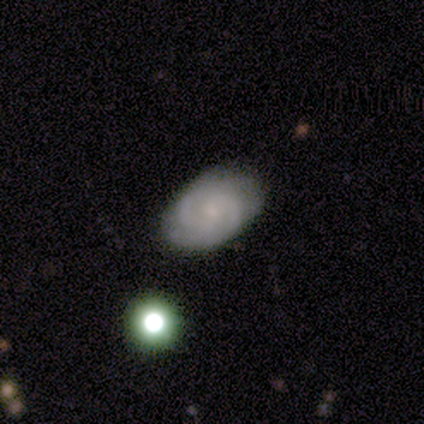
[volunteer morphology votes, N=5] Smooth or featured: featured or disk — 60% (smooth — 40%)
Edge-on disk: no — 100%
Bar: no — 67% (weak — 33%)
Spiral arms: yes — 100%
Spiral winding: tight — 67% (medium — 33%)
Spiral arm count: 2 — 33% (tied with 3 — 33%; can't tell — 33%)
Bulge size: small — 67% (large — 33%)
Merging: none — 100%